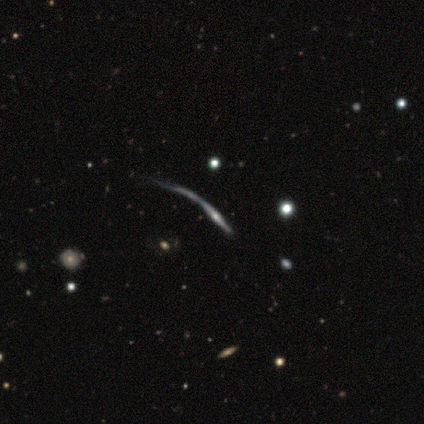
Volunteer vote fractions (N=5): smooth-or-featured: featured or disk: 100% | smooth: 0% | star or artifact: 0%
  disk-edge-on: yes: 80% | no: 20%
    edge-on-bulge: none: 50% (tied) | rounded: 50% (tied) | boxy: 0%
  merging: none: 60% | major disturbance: 40% | minor disturbance: 0% | merger: 0%